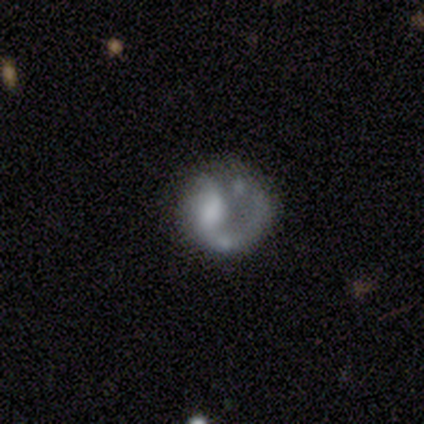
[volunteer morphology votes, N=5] Volunteers were most divided on "merging": major disturbance: 50%, none: 25%, merger: 25%, minor disturbance: 0%. More confident: edge-on disk — no (100%); bar — no (100%); spiral arms — no (67%); bulge size — large (67%); smooth or featured — featured or disk (60%).